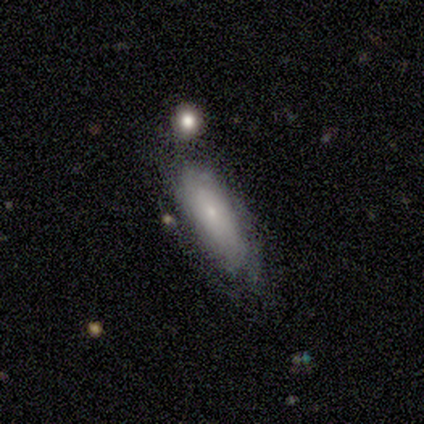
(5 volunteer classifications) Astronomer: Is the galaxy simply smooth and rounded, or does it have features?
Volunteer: smooth — 60% (runner-up: featured or disk, 40%).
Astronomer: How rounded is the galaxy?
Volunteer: in between — 67%.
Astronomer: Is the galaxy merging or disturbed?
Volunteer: none — 40%, tied with minor disturbance at 40%.